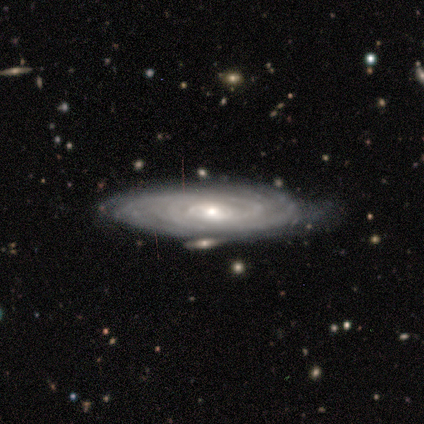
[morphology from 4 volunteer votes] smooth-or-featured: featured or disk: 100% | smooth: 0% | star or artifact: 0%
  disk-edge-on: no: 100% | yes: 0%
    bar: weak: 50% (tied) | no: 50% (tied) | strong: 0%
    has-spiral-arms: yes: 100% | no: 0%
      spiral-winding: tight: 50% (tied) | medium: 50% (tied) | loose: 0%
      spiral-arm-count: can't tell: 75% | more than 4: 25% | 1: 0% | 2: 0% | 3: 0% | 4: 0%
    bulge-size: moderate: 50% (tied) | small: 50% (tied) | dominant: 0% | large: 0% | none: 0%
  merging: none: 75% | minor disturbance: 25% | major disturbance: 0% | merger: 0%